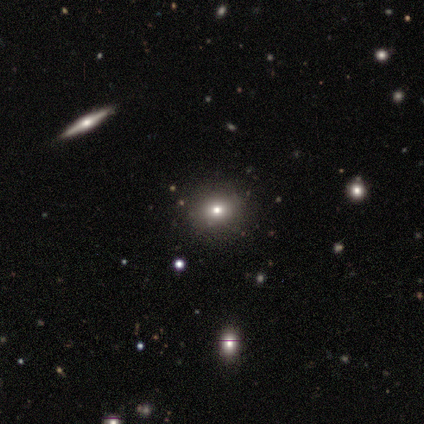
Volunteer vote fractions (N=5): smooth-or-featured: featured or disk: 60% | smooth: 40% | star or artifact: 0%
  disk-edge-on: no: 100% | yes: 0%
    bar: no: 100% | strong: 0% | weak: 0%
    has-spiral-arms: no: 100% | yes: 0%
    bulge-size: small: 67% | dominant: 33% | large: 0% | moderate: 0% | none: 0%
  merging: none: 100% | minor disturbance: 0% | major disturbance: 0% | merger: 0%